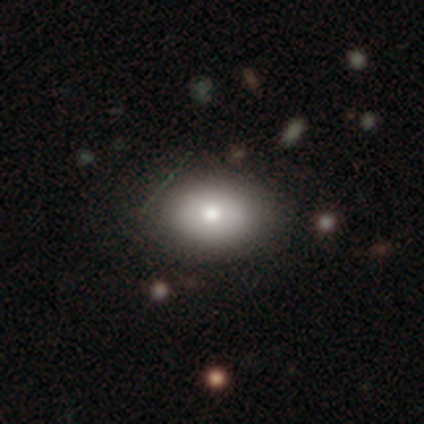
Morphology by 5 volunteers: This is clearly a smooth galaxy (80%). How rounded: clearly in between (100%). Merging: clearly none (100%).